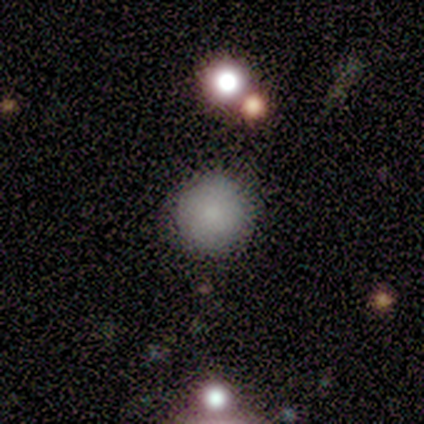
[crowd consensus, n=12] smooth_or_featured: smooth (p=1.00)
how_rounded: round (p=1.00)
merging: none (p=1.00)